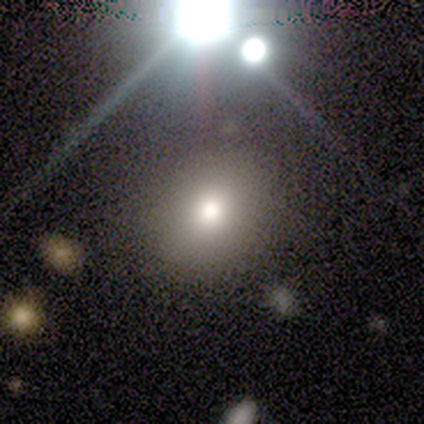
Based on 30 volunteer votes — A smooth galaxy with no disk features (63%) that is round (63%).

Vote fractions:
- Smooth or featured? smooth: 63% / star or artifact: 23% / featured or disk: 13%
- How rounded? round: 63% / in between: 37% / cigar-shaped: 0%
- Merging? none: 70% / minor disturbance: 22% / major disturbance: 4% / merger: 4%